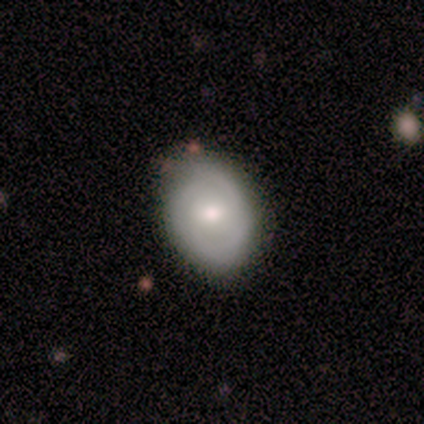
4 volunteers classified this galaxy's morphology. Overall: smooth (50%; featured or disk 25%). How rounded: in between (100%). Merging: none (100%).